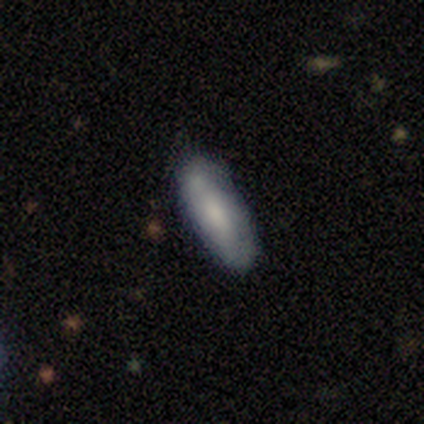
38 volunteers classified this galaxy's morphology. Q: Smooth or featured?
A: smooth (66%); runner-up: featured or disk (34%)
Q: How rounded?
A: in between (68%); runner-up: cigar-shaped (32%)
Q: Merging?
A: none (68%); runner-up: minor disturbance (13%)